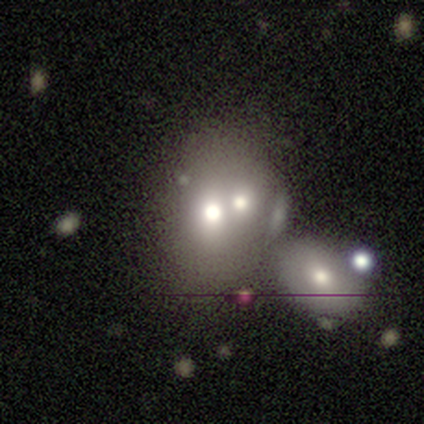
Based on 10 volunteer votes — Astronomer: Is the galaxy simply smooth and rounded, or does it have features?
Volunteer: smooth — 80%.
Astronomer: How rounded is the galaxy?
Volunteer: in between — 62%.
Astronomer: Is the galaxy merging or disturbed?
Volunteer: merger — 56% (runner-up: none, 33%).